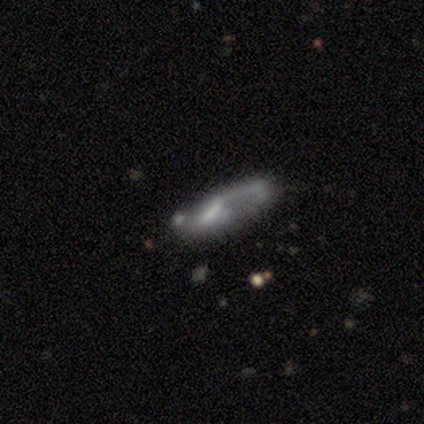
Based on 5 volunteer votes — Q: Smooth or featured?
A: featured or disk (60%); runner-up: smooth (40%)
Q: Edge-on disk?
A: no (100%)
Q: Bar?
A: weak (100%)
Q: Spiral arms?
A: yes (100%)
Q: Spiral winding?
A: tight (33%); tied with: medium (33%); loose (33%)
Q: Spiral arm count?
A: 2 (100%)
Q: Bulge size?
A: moderate (33%); tied with: small (33%); none (33%)
Q: Merging?
A: minor disturbance (40%); tied with: major disturbance (40%)